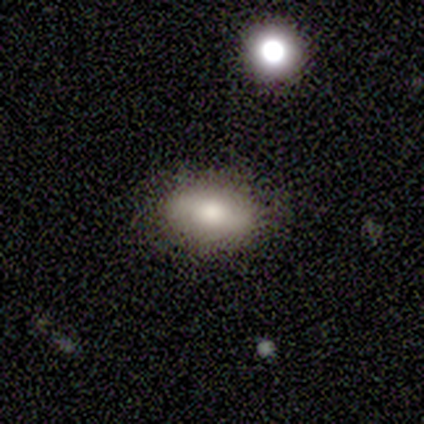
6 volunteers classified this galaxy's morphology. smooth 67%, featured or disk 17%, star or artifact 17%. Down the decision tree: how rounded — in between (100%); merging — none (80%).